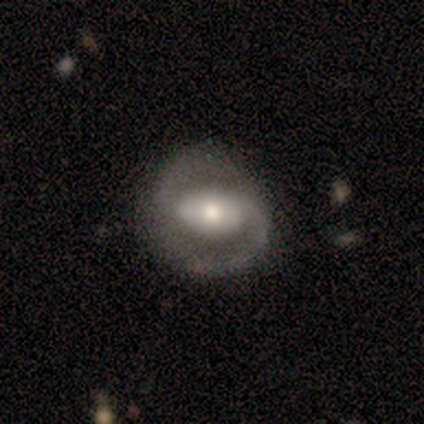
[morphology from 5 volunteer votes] A featured or disk galaxy (100%) with a weak bar (60%), 2 (100%) medium (60%) spiral arms (100%) and a moderate central bulge (60%). Merging: none (60%).